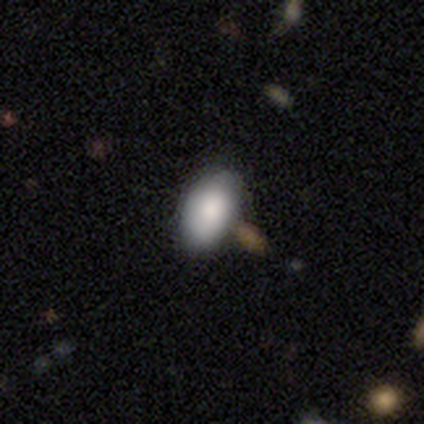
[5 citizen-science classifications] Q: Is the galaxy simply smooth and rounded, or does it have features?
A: smooth — 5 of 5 (100%).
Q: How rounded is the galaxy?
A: in between — 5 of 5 (100%).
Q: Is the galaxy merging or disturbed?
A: minor disturbance — 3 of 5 (60%).